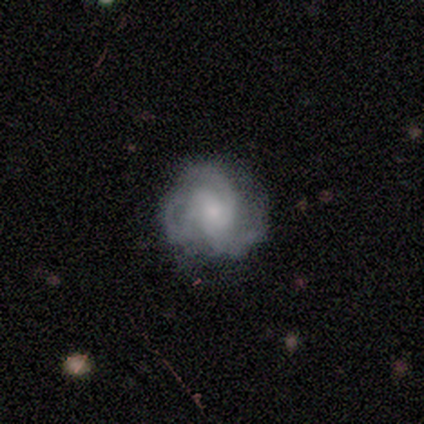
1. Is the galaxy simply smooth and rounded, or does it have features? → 80% featured or disk, 20% smooth, 0% star or artifact.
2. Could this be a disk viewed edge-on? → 100% no, 0% yes.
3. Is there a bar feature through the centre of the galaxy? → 100% no, 0% strong, 0% weak.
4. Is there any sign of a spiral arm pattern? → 100% yes, 0% no.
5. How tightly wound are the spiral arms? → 50% tight (tied), 50% medium (tied), 0% loose.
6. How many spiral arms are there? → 75% 3, 25% can't tell, 0% 1, 0% 2, 0% 4, 0% more than 4.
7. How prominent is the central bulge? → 75% small, 25% moderate, 0% dominant, 0% large, 0% none.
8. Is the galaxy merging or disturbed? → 80% none, 20% major disturbance, 0% minor disturbance, 0% merger.